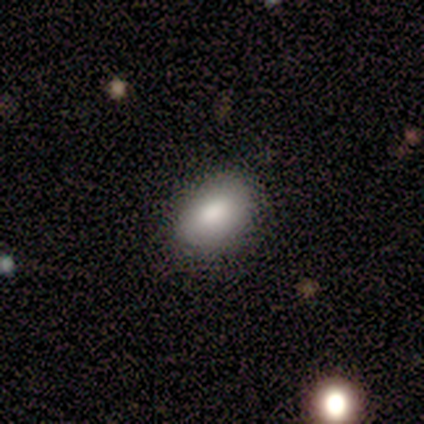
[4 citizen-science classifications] smooth-or-featured: smooth: 100% | featured or disk: 0% | star or artifact: 0%
  how-rounded: in between: 100% | round: 0% | cigar-shaped: 0%
  merging: none: 75% | minor disturbance: 25% | major disturbance: 0% | merger: 0%